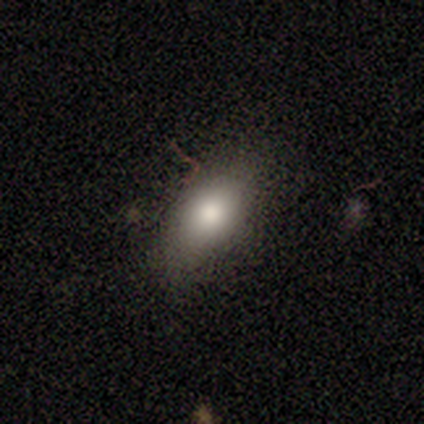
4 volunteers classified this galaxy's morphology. smooth-or-featured: smooth: 75% | star or artifact: 25% | featured or disk: 0%
  how-rounded: in between: 100% | round: 0% | cigar-shaped: 0%
  merging: none: 100% | minor disturbance: 0% | major disturbance: 0% | merger: 0%